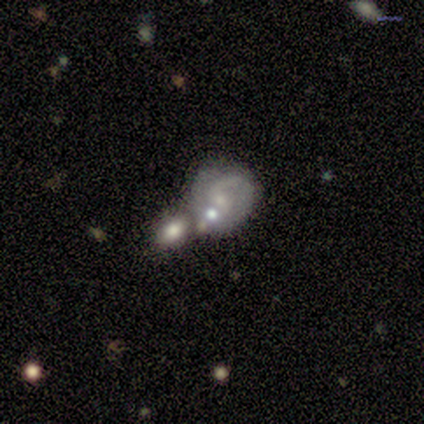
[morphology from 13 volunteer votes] Overall: featured or disk (62%; smooth 31%). Edge-on disk: no (100%). Bar: weak (62%; no 38%). Spiral arms: yes (88%). Spiral arm count: 2 (57%; can't tell 43%). Spiral winding: medium (57%; loose 29%). Bulge size: small (75%). Merging: merger (58%; none 33%).